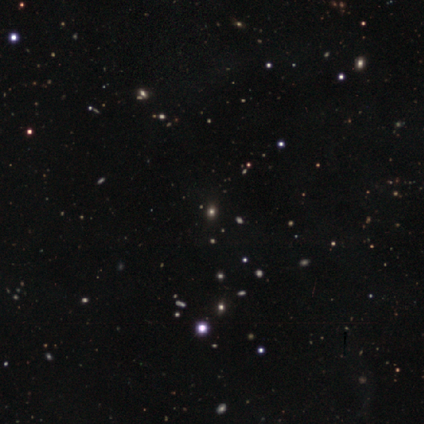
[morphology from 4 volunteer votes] Consensus on every question: smooth or featured — star or artifact (100%).